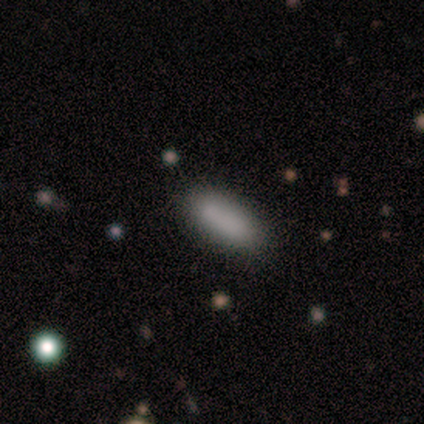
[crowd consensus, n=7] smooth-or-featured: smooth: 100% | featured or disk: 0% | star or artifact: 0%
  how-rounded: in between: 57% | cigar-shaped: 43% | round: 0%
  merging: none: 86% | minor disturbance: 14% | major disturbance: 0% | merger: 0%